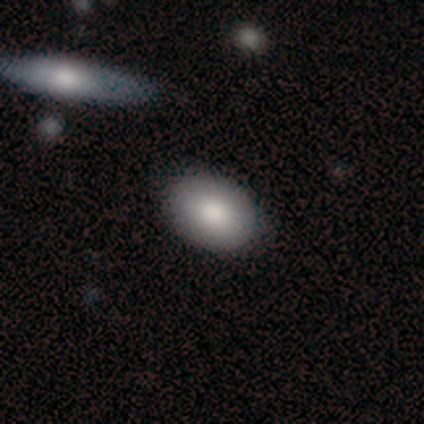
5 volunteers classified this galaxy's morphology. Smooth or featured: smooth — 60% (featured or disk — 40%)
How rounded: in between — 100%
Merging: none — 100%